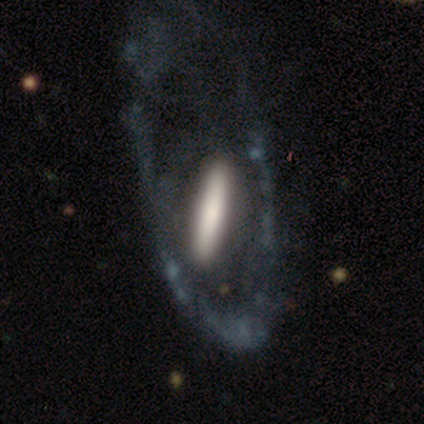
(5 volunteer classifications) A featured or disk galaxy (60%) viewed edge-on (67%) with a boxy central bulge (50%, tied with none).

Vote fractions:
- Smooth or featured? featured or disk: 60% / smooth: 20% / star or artifact: 20%
- Edge-on disk? yes: 67% / no: 33%
- Edge-on bulge? boxy: 50% (tied) / none: 50% (tied) / rounded: 0%
- Merging? none: 50% (tied) / major disturbance: 50% (tied) / minor disturbance: 0% / merger: 0%